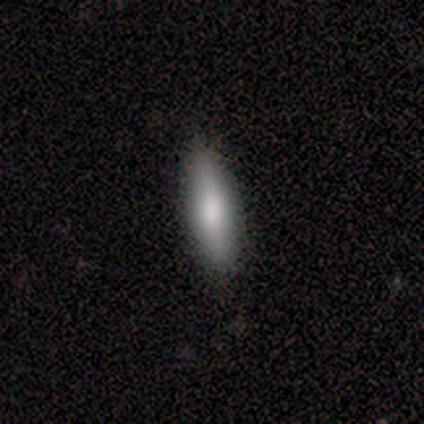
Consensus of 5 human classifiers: smooth-or-featured: smooth: 40% (tied) | featured or disk: 40% (tied) | star or artifact: 20%
  how-rounded: cigar-shaped: 100% | round: 0% | in between: 0%
  merging: none: 75% | minor disturbance: 25% | major disturbance: 0% | merger: 0%